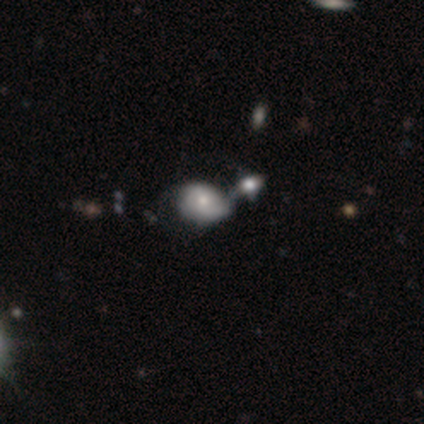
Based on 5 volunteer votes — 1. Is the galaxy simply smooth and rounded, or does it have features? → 40% smooth (tied), 40% featured or disk (tied), 20% star or artifact.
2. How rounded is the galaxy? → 50% round (tied), 50% in between (tied), 0% cigar-shaped.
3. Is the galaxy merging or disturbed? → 50% major disturbance (tied), 50% merger (tied), 0% none, 0% minor disturbance.